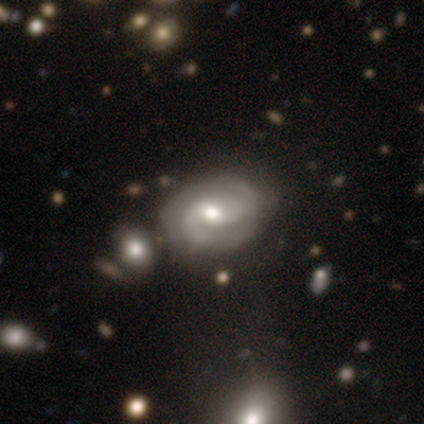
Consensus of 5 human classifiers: Smooth or featured: featured or disk — 80% (smooth — 20%)
Edge-on disk: no — 100%
Bar: no — 75% (weak — 25%)
Spiral arms: yes — 100%
Spiral winding: tight — 50% (tied with medium — 50%)
Spiral arm count: 2 — 100%
Bulge size: small — 75% (large — 25%)
Merging: none — 80% (minor disturbance — 20%)